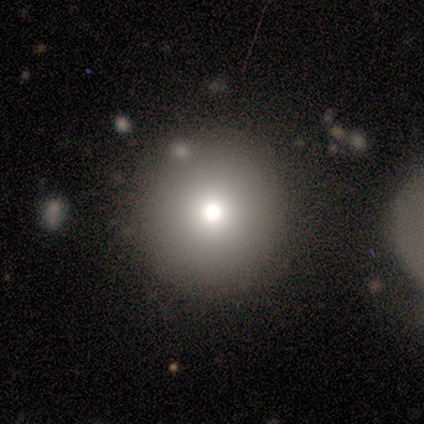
A smooth galaxy with no disk features (92%) that is round (100%).

Vote fractions:
- Smooth or featured? smooth: 92% / featured or disk: 8% / star or artifact: 0%
- How rounded? round: 100% / in between: 0% / cigar-shaped: 0%
- Merging? none: 83% / minor disturbance: 8% / merger: 8% / major disturbance: 0%